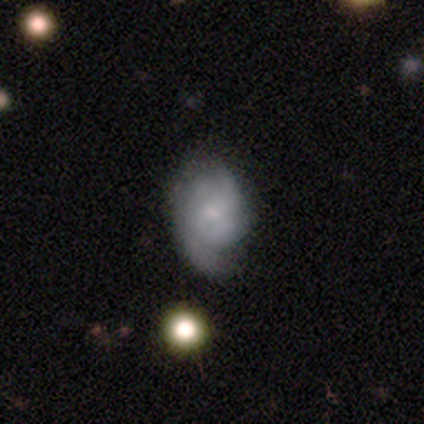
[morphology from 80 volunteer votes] A featured or disk galaxy (70%) with no bar (62%), tight (48%) spiral arms (89%) and a small central bulge (59%).

Vote fractions:
- Smooth or featured? featured or disk: 70% / smooth: 25% / star or artifact: 5%
- Edge-on disk? no: 100% / yes: 0%
- Bar? no: 62% / weak: 38% / strong: 0%
- Spiral arms? yes: 89% / no: 11%
- Spiral winding? tight: 48% / medium: 32% / loose: 20%
- Spiral arm count? can't tell: 56% / 2: 26% / 3: 10% / 1: 4% / 4: 4% / more than 4: 0%
- Bulge size? small: 59% / moderate: 21% / none: 16% / dominant: 2% / large: 2%
- Merging? none: 30% / minor disturbance: 13% / major disturbance: 8% / merger: 3%